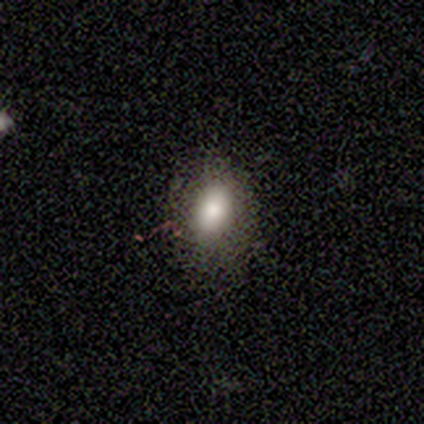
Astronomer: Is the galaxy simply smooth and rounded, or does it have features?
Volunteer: smooth — 80%.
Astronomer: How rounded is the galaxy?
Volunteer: round — 50%, tied with in between at 50%.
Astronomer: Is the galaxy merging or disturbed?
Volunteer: none — 75%.